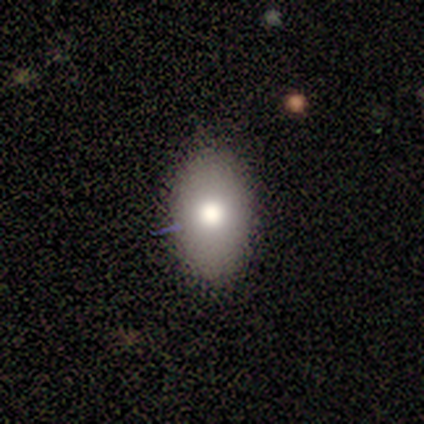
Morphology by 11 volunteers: Volunteers were most divided on "smooth or featured": smooth: 73%, featured or disk: 27%, star or artifact: 0%. More confident: merging — none (91%); how rounded — in between (75%).